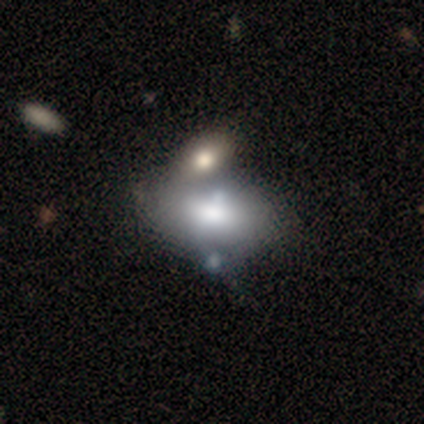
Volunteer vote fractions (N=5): Q: Smooth or featured?
A: smooth (60%); runner-up: featured or disk (40%)
Q: How rounded?
A: in between (100%)
Q: Merging?
A: none (40%); runner-up: minor disturbance (20%)